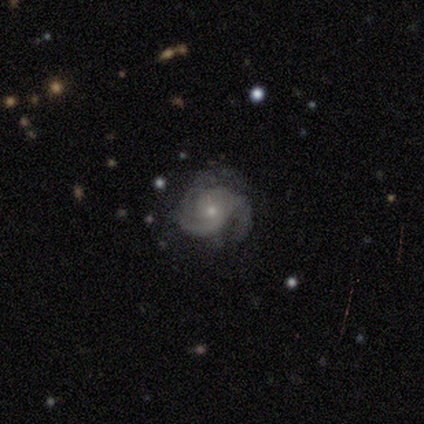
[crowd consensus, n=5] This is clearly a featured or disk galaxy (100%). It is clearly not viewed edge-on (100%). Bar: clearly no (100%). Spiral arm pattern: clearly yes (100%). Spiral arm count: marginally 3 (40%, tied with can't tell). Spiral winding: likely medium (60%). Central bulge: clearly small (100%). Merging: clearly none (80%).